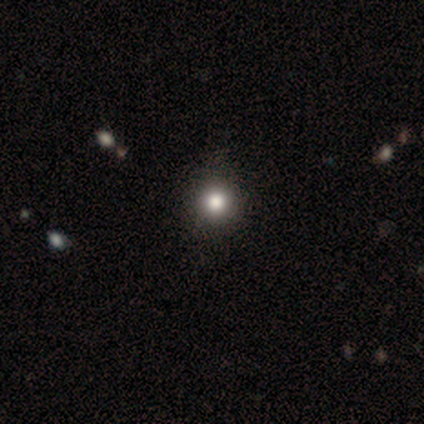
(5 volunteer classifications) Smooth or featured: smooth — 60% (star or artifact — 40%)
How rounded: round — 100%
Merging: none — 100%